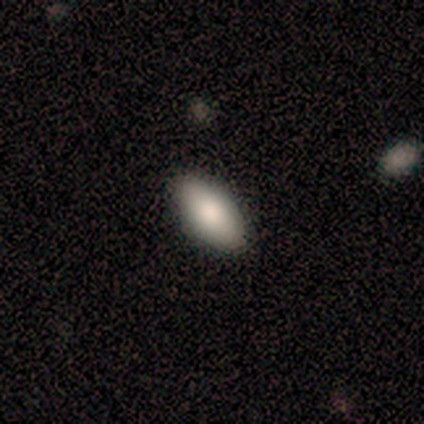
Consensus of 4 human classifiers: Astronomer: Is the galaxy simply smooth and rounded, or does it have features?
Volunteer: smooth — 100%.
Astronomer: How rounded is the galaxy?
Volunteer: in between — 75%.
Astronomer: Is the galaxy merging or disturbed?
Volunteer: none — 75%.